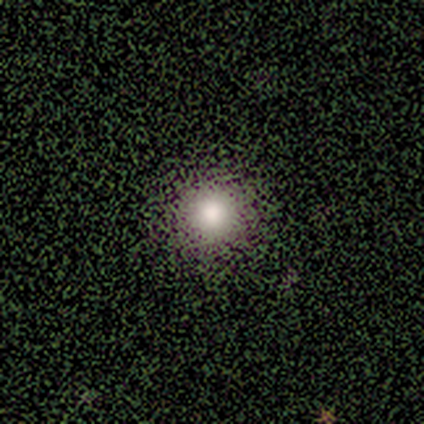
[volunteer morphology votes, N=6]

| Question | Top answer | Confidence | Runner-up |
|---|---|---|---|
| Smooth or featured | smooth | 100% | — |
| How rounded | round | 100% | — |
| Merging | none | 100% | — |